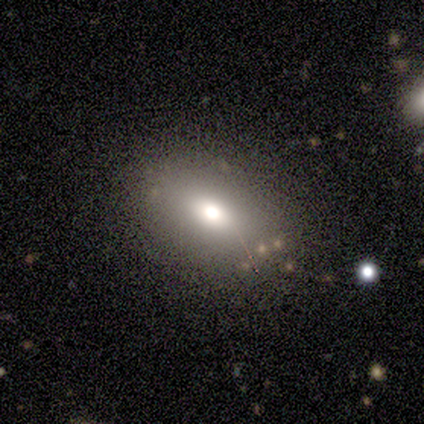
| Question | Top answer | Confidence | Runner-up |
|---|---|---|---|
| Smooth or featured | smooth | 60% | featured or disk (20%) |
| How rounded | in between | 100% | — |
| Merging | none | 100% | — |